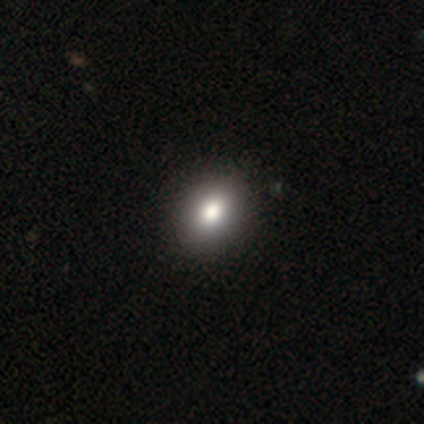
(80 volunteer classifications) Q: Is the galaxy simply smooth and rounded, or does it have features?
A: smooth — 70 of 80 (88%).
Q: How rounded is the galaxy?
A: in between — 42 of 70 (60%).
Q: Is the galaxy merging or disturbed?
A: none — 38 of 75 (51%).